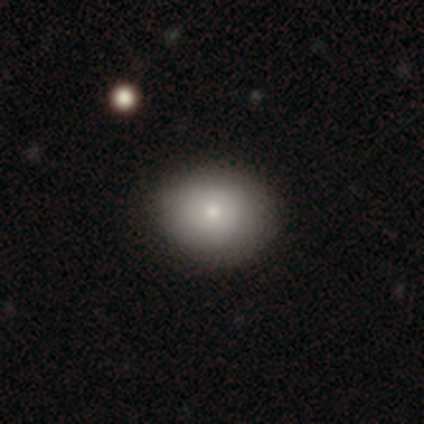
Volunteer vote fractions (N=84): This appears to be a smooth galaxy with no disk features (81%) that is round (50%, tied with in between). Merging: none (85%).